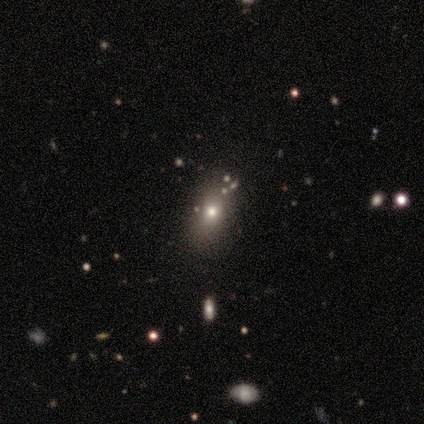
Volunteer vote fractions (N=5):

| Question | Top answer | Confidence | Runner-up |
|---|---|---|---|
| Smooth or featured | smooth | 80% | star or artifact (20%) |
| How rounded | round | 50% | tied: in between (50%) |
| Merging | none | 75% | minor disturbance (25%) |